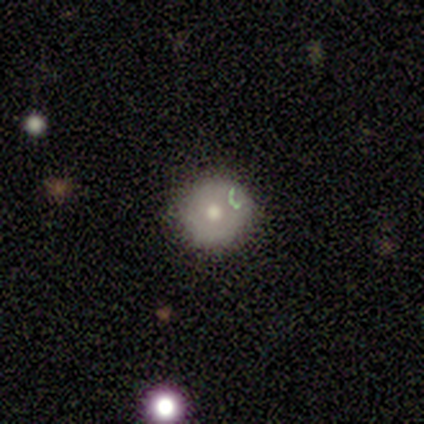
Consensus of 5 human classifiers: This appears to be a smooth galaxy with no disk features (60%) that is round (100%). Merging: none (100%).